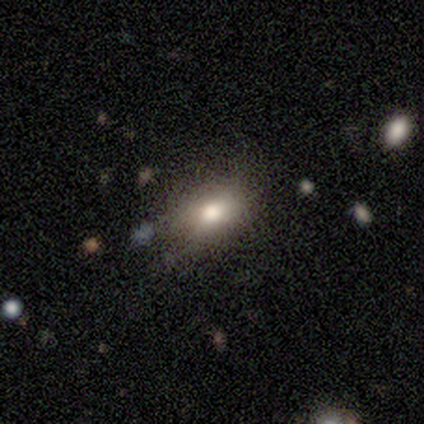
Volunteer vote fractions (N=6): This appears to be a smooth galaxy with no disk features (83%) that is in between round and cigar-shaped (80%). Merging: none (67%).